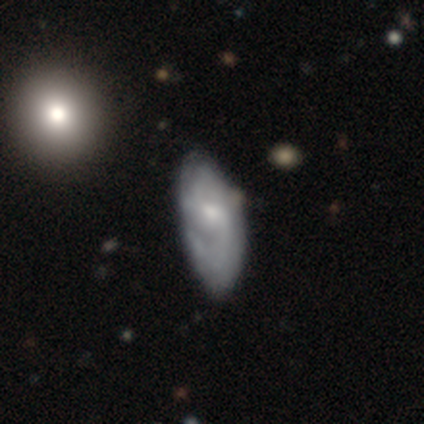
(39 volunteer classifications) Smooth or featured? 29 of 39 (74%) said featured or disk. Edge-on disk? 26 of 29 (90%) said no. Bar? 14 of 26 (54%) said no. Spiral arms? 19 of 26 (73%) said yes. Spiral winding? 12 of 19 (63%) said medium. Spiral arm count? 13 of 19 (68%) said 2. Bulge size? 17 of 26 (65%) said small. Merging? 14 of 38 (37%) said none.